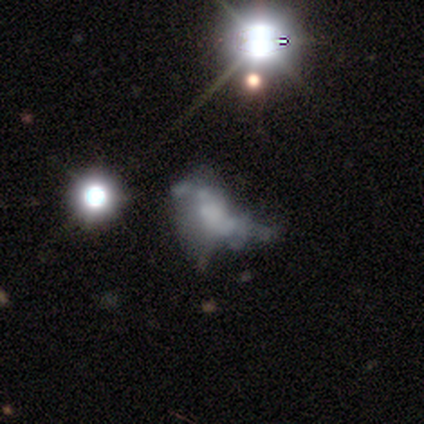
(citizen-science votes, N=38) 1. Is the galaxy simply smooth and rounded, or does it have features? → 53% featured or disk, 26% star or artifact, 21% smooth.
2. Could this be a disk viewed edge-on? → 100% no, 0% yes.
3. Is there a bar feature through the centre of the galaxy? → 90% no, 5% strong, 5% weak.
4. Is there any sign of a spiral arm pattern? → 95% no, 5% yes.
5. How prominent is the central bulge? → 60% none, 15% moderate, 15% small, 5% dominant, 5% large.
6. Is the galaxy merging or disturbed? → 64% major disturbance, 14% minor disturbance, 11% none, 11% merger.